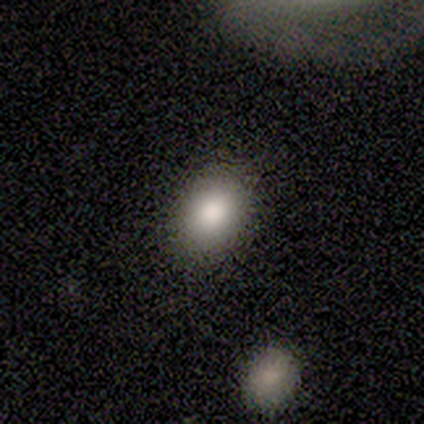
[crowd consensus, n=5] smooth_or_featured: smooth (p=0.80) [alt: featured or disk p=0.20]
how_rounded: round (p=0.50) [tied with: in between p=0.50]
merging: none (p=0.80) [alt: minor disturbance p=0.20]